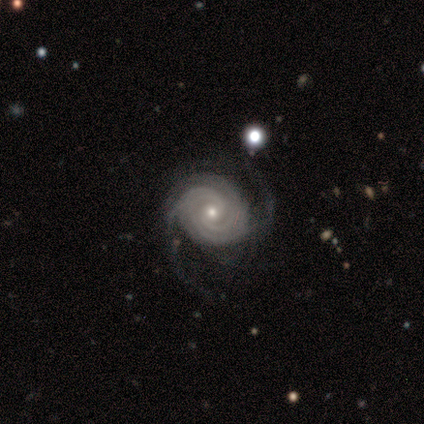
Smooth or featured?
  - featured or disk: 100% *
  - smooth: 0%
  - star or artifact: 0%
Edge-on disk?
  - no: 100% *
  - yes: 0%
Bar?
  - no: 100% *
  - strong: 0%
  - weak: 0%
Spiral arms?
  - yes: 100% *
  - no: 0%
Spiral winding?
  - tight: 100% *
  - medium: 0%
  - loose: 0%
Spiral arm count?
  - can't tell: 40% *
  - 2: 20%
  - 3: 20%
  - more than 4: 20%
  - 1: 0%
  - 4: 0%
Bulge size?
  - small: 60% *
  - moderate: 40%
  - dominant: 0%
  - large: 0%
  - none: 0%
Merging?
  - none: 60% *
  - minor disturbance: 20%
  - major disturbance: 20%
  - merger: 0%